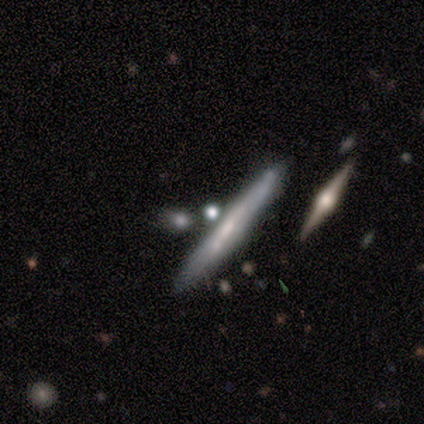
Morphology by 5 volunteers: Overall: featured or disk (60%; smooth 40%). Edge-on disk: yes (100%). Edge-on bulge: none (100%). Merging: none (100%).